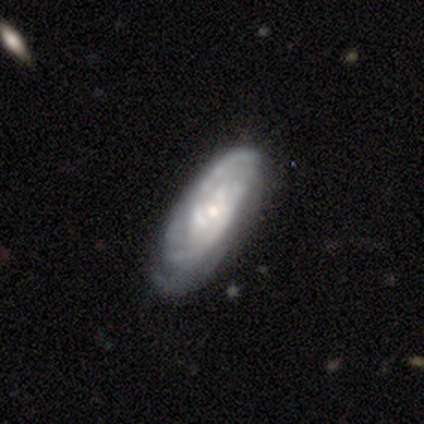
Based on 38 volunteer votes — A featured or disk galaxy (82%) with no bar (79%), tight (58%) spiral arms (86%) and a moderate central bulge (46%, tied with small). Merging: none (75%).